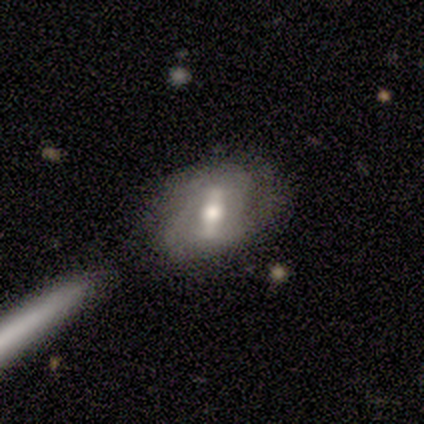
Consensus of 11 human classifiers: This is possibly a featured or disk galaxy (55%). It is clearly not viewed edge-on (83%). Bar: likely weak (60%). Spiral arm pattern: clearly yes (100%). Spiral arm count: marginally 2 (40%, tied with 3). Spiral winding: clearly tight (80%). Central bulge: clearly moderate (80%). Merging: possibly none (45%).